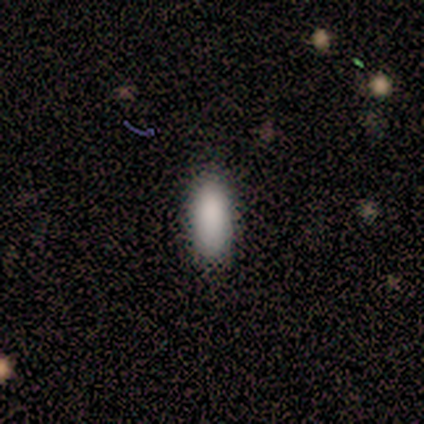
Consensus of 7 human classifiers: smooth-or-featured: smooth: 100% | featured or disk: 0% | star or artifact: 0%
  how-rounded: in between: 71% | cigar-shaped: 29% | round: 0%
  merging: none: 86% | minor disturbance: 14% | major disturbance: 0% | merger: 0%